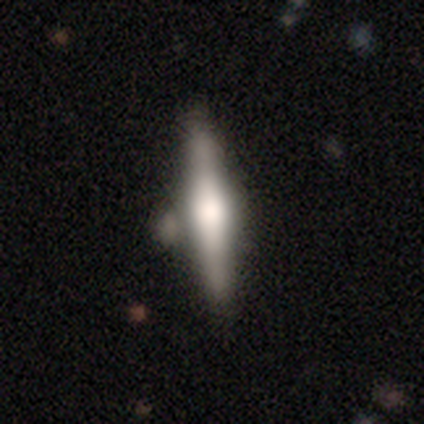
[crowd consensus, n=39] Volunteers were most divided on "edge-on bulge": rounded: 58%, boxy: 29%, none: 12%. More confident: edge-on disk — yes (100%); smooth or featured — featured or disk (62%); merging — none (56%).